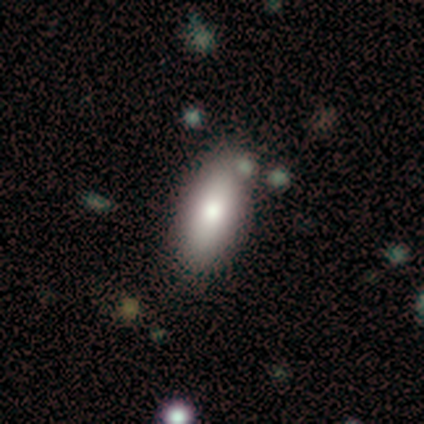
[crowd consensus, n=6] smooth 67%, featured or disk 17%, star or artifact 17%. Down the decision tree: how rounded — in between (100%); merging — none (100%).